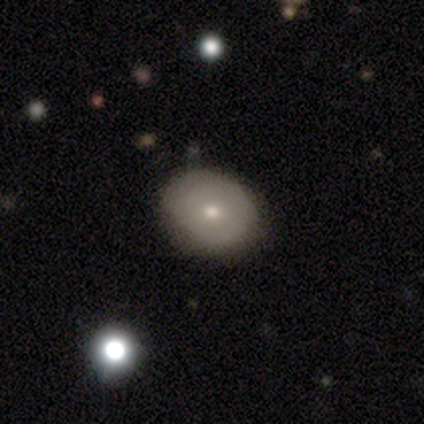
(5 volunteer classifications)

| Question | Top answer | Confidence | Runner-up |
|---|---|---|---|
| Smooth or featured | smooth | 40% | tied: featured or disk (40%) |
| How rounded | in between | 100% | — |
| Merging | none | 100% | — |